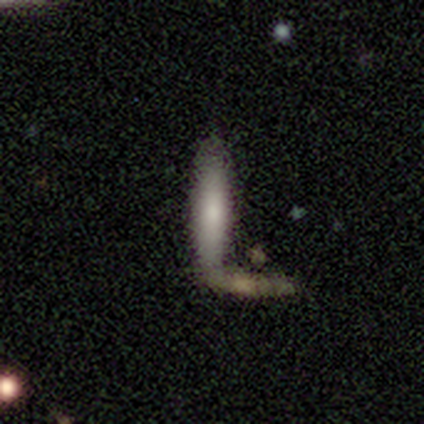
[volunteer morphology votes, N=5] type=smooth (60%); roundness=cigar-shaped (67%); merging=none (60%).